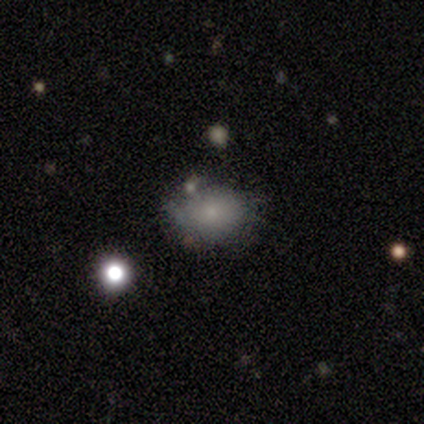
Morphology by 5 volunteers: This appears to be a featured or disk galaxy (60%) with no bar (100%), no spiral arms (67%) and a small central bulge (100%). Merging: none (50%).